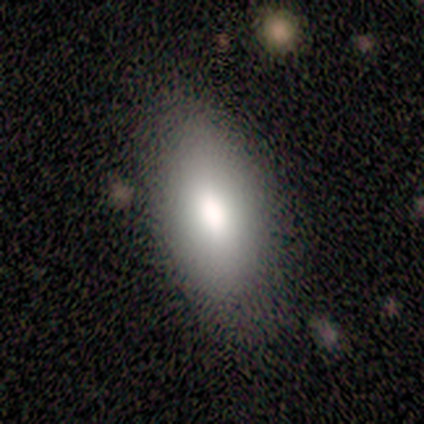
Smooth or featured? 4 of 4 (100%) said smooth. How rounded? 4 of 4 (100%) said in between. Merging? 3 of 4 (75%) said none.